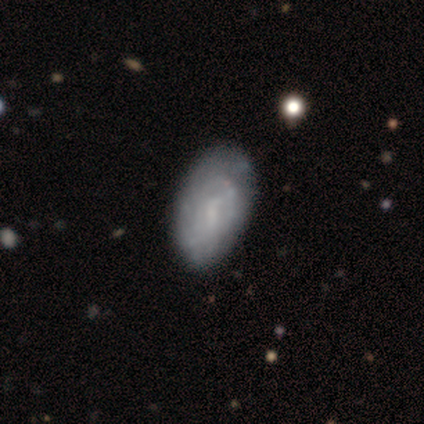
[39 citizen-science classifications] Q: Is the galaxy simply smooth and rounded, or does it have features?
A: featured or disk — 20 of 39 (51%).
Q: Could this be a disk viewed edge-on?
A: no — 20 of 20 (100%).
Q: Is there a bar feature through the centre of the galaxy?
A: no — 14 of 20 (70%).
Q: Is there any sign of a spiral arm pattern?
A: yes — 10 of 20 (50%, tied with no).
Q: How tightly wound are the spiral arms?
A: tight — 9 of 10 (90%).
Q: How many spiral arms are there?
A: can't tell — 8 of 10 (80%).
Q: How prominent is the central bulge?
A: small — 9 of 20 (45%, tied with none).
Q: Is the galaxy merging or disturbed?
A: none — 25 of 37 (68%).